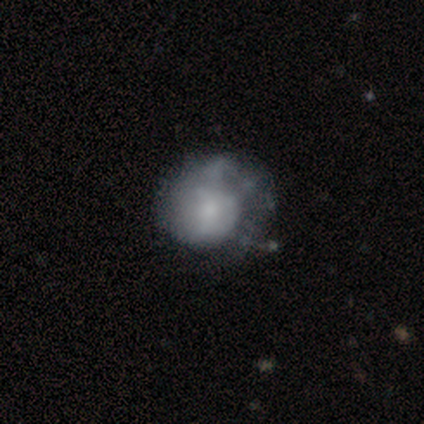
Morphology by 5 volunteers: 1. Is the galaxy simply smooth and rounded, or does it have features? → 60% smooth, 40% featured or disk, 0% star or artifact.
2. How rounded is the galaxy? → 100% round, 0% in between, 0% cigar-shaped.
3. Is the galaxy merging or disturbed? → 80% major disturbance, 20% none, 0% minor disturbance, 0% merger.